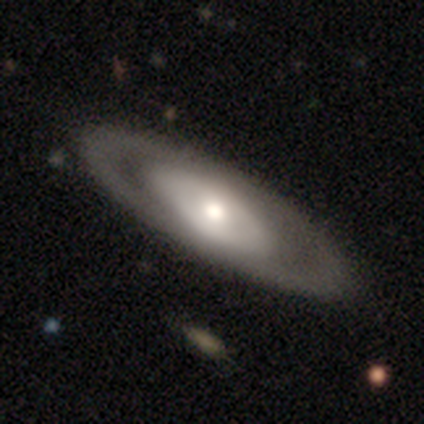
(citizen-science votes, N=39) featured or disk 72%, smooth 26%, star or artifact 3%. Down the decision tree: edge-on disk — no (86%); bar — no (79%); spiral arms — no (88%); bulge size — moderate (75%); merging — none (76%).